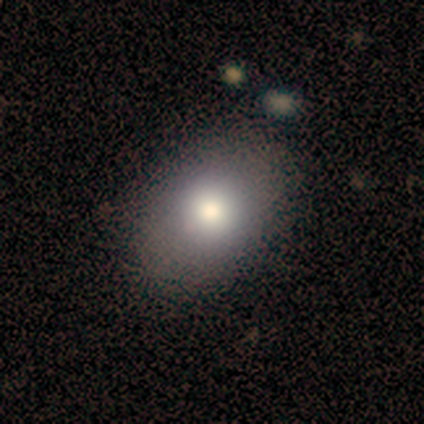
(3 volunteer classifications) Q: Smooth or featured?
A: smooth (100%)
Q: How rounded?
A: in between (100%)
Q: Merging?
A: none (100%)